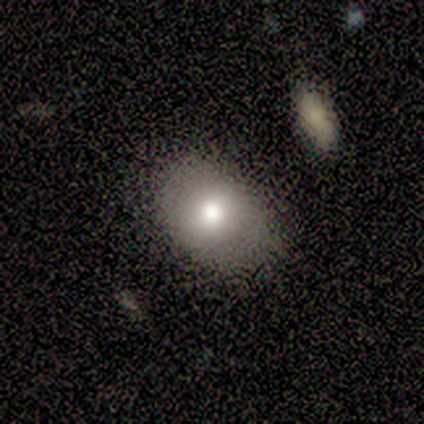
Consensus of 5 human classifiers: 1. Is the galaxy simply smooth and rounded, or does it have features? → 80% smooth, 20% featured or disk, 0% star or artifact.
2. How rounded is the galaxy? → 50% round (tied), 50% in between (tied), 0% cigar-shaped.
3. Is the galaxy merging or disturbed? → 80% none, 20% minor disturbance, 0% major disturbance, 0% merger.